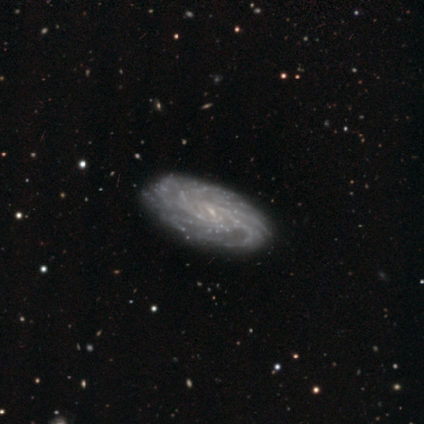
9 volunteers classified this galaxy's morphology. Overall: featured or disk (100%). Edge-on disk: no (67%; yes 33%). Bar: no (50%; weak 33%). Spiral arms: yes (83%). Spiral arm count: more than 4 (40%, tied with can't tell). Spiral winding: tight (80%). Bulge size: small (67%). Merging: none (78%).